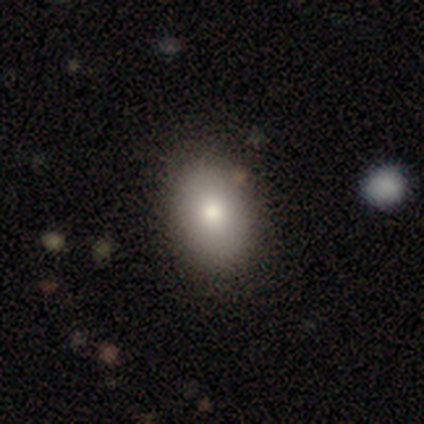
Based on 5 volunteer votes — smooth-or-featured: smooth: 80% | featured or disk: 20% | star or artifact: 0%
  how-rounded: in between: 100% | round: 0% | cigar-shaped: 0%
  merging: none: 80% | minor disturbance: 20% | major disturbance: 0% | merger: 0%